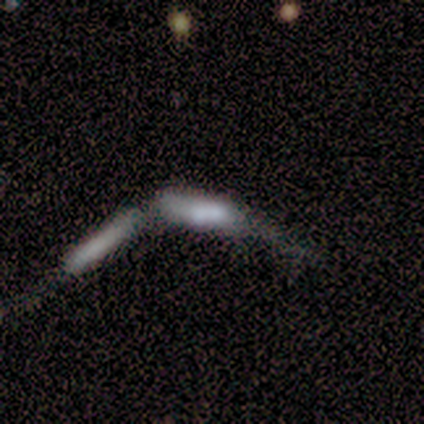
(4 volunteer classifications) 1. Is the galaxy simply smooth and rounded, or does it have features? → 75% smooth, 25% featured or disk, 0% star or artifact.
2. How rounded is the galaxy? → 100% cigar-shaped, 0% round, 0% in between.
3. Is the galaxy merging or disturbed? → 50% merger, 25% none, 25% major disturbance, 0% minor disturbance.